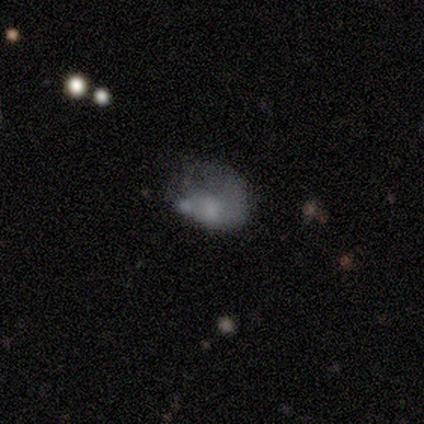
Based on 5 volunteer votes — Smooth or featured: smooth — 60% (featured or disk — 20%)
How rounded: in between — 67% (round — 33%)
Merging: major disturbance — 50% (none — 25%)